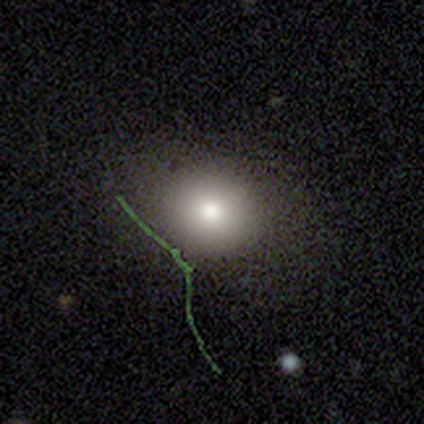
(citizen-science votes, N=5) Overall: smooth (60%; featured or disk 20%). How rounded: round (67%; in between 33%). Merging: none (75%).